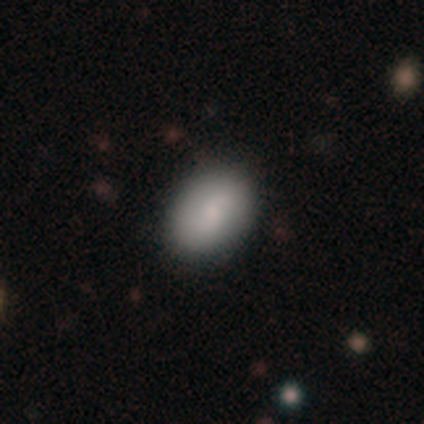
Volunteers were most divided on "merging": none: 44%, minor disturbance: 4%, merger: 4%, major disturbance: 0%. More confident: how rounded — in between (85%); smooth or featured — smooth (75%).